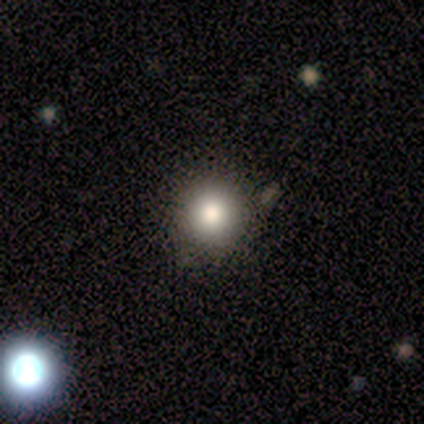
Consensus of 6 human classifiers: smooth-or-featured: smooth: 67% | star or artifact: 33% | featured or disk: 0%
  how-rounded: round: 75% | in between: 25% | cigar-shaped: 0%
  merging: none: 75% | merger: 25% | minor disturbance: 0% | major disturbance: 0%